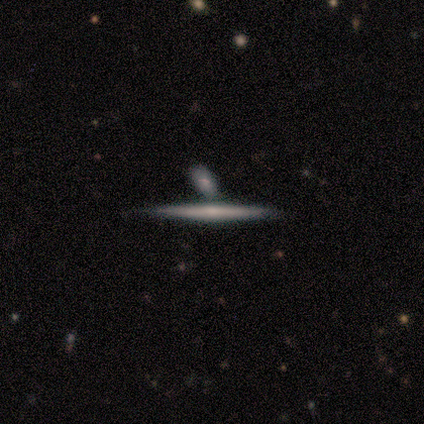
Q: Smooth or featured?
A: featured or disk (69%); runner-up: smooth (31%)
Q: Edge-on disk?
A: yes (100%)
Q: Edge-on bulge?
A: none (55%); runner-up: rounded (36%)
Q: Merging?
A: none (44%); runner-up: merger (31%)